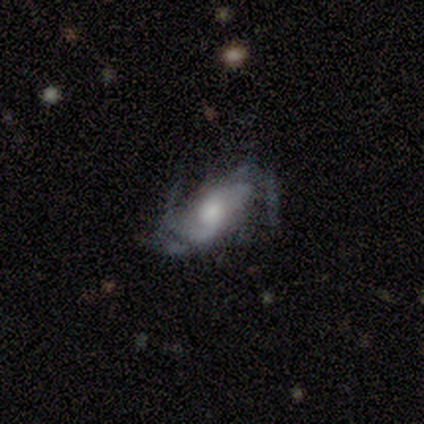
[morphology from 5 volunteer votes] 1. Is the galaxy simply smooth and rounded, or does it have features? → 80% featured or disk, 20% star or artifact, 0% smooth.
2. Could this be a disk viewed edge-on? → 100% no, 0% yes.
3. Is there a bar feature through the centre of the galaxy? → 50% weak, 25% strong, 25% no.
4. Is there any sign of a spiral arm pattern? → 100% yes, 0% no.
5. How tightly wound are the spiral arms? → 75% medium, 25% loose, 0% tight.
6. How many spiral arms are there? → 75% 2, 25% 3, 0% 1, 0% 4, 0% more than 4, 0% can't tell.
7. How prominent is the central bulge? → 50% small, 25% large, 25% moderate, 0% dominant, 0% none.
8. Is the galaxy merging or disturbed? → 50% none (tied), 50% minor disturbance (tied), 0% major disturbance, 0% merger.